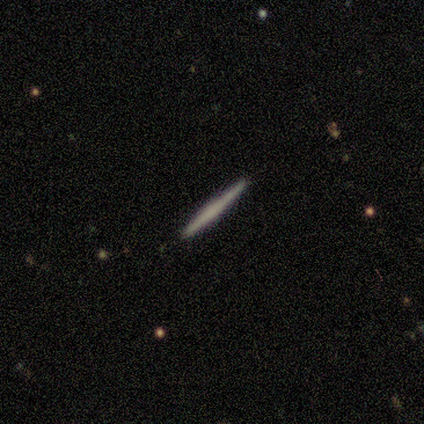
Smooth or featured? 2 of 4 (50%, tied with featured or disk) said smooth. How rounded? 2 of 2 (100%) said cigar-shaped. Merging? 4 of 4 (100%) said none.